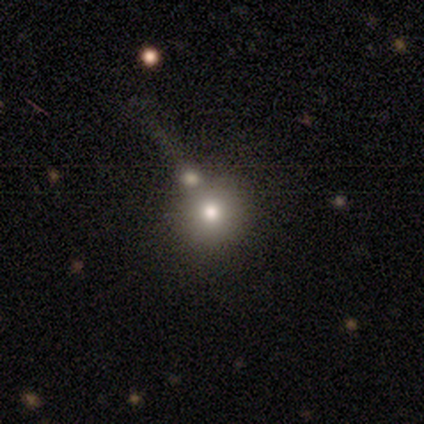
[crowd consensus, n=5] A smooth galaxy with no disk features (80%) that is round (100%).

Vote fractions:
- Smooth or featured? smooth: 80% / star or artifact: 20% / featured or disk: 0%
- How rounded? round: 100% / in between: 0% / cigar-shaped: 0%
- Merging? none: 75% / merger: 25% / minor disturbance: 0% / major disturbance: 0%